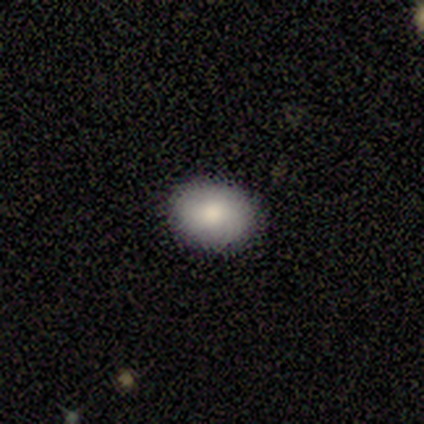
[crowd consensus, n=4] This appears to be a smooth galaxy with no disk features (50%) that is in between round and cigar-shaped (100%). Merging: none (100%).